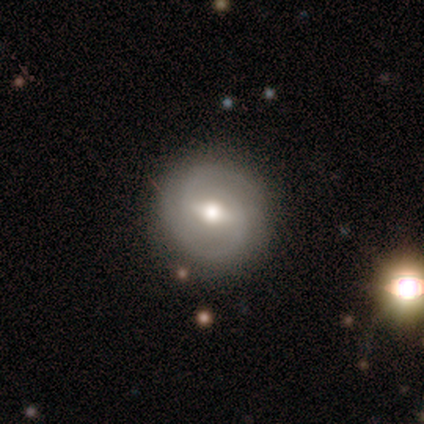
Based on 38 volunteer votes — Overall: featured or disk (76%). Edge-on disk: no (93%). Bar: weak (74%). Spiral arms: yes (89%). Spiral arm count: 2 (83%). Spiral winding: medium (58%; tight 38%). Bulge size: moderate (74%). Merging: none (72%).